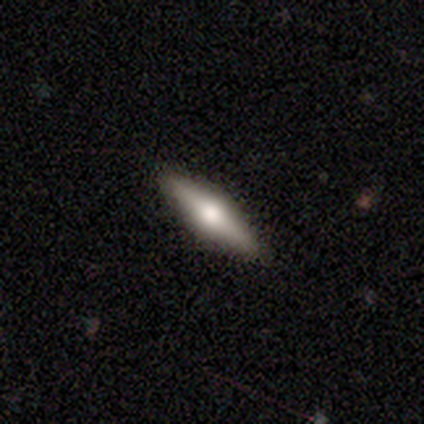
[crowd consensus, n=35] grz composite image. It shows a featured or disk galaxy (74%) viewed edge-on (96%) with a rounded central bulge (92%). Merging: none (94%).